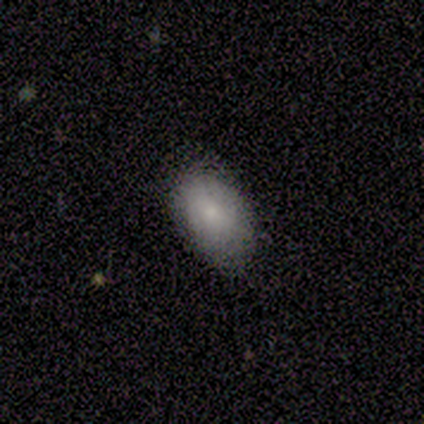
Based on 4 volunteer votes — Q: Smooth or featured?
A: smooth (50%); tied with: featured or disk (50%)
Q: How rounded?
A: in between (100%)
Q: Merging?
A: minor disturbance (75%); runner-up: none (25%)